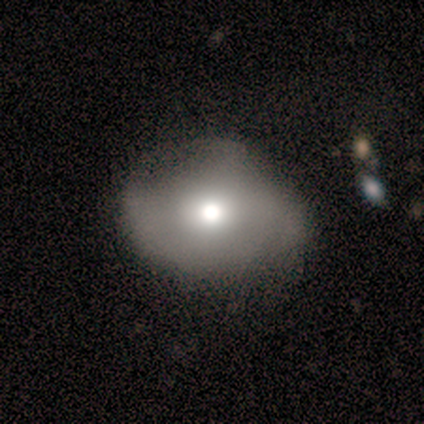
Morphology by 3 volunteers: Q: Smooth or featured?
A: smooth (67%); runner-up: featured or disk (33%)
Q: How rounded?
A: round (50%); tied with: in between (50%)
Q: Merging?
A: minor disturbance (67%); runner-up: none (33%)